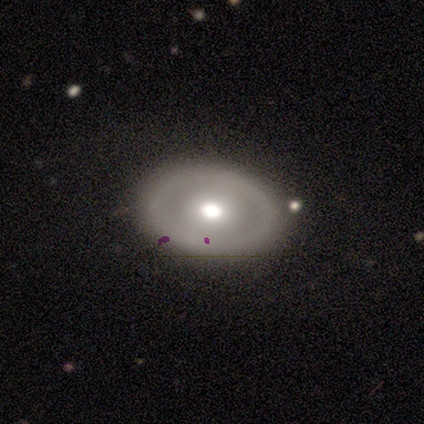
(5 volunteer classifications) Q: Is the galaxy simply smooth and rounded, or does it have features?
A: featured or disk — 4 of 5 (80%).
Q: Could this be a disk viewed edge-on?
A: no — 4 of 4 (100%).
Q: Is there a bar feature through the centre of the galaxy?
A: no — 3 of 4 (75%).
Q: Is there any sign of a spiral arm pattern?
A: no — 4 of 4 (100%).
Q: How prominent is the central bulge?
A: moderate — 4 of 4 (100%).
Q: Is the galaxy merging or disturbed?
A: none — 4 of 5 (80%).